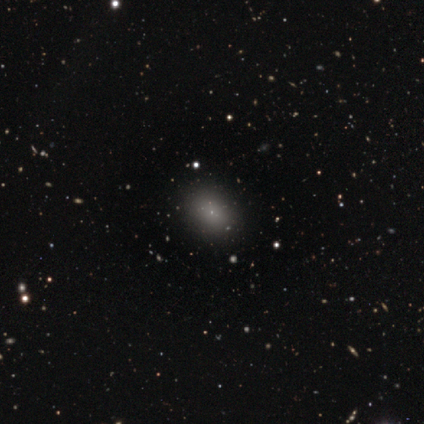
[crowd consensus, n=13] Smooth or featured: smooth — 62% (star or artifact — 31%)
How rounded: in between — 62% (round — 38%)
Merging: none — 100%